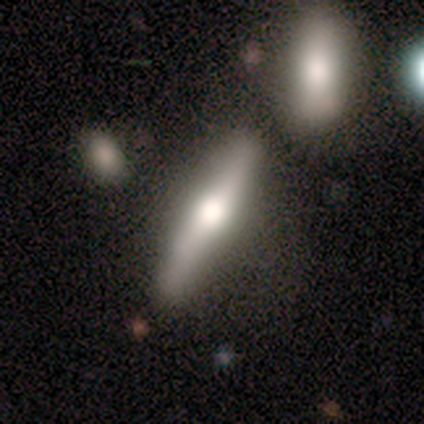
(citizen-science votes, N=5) featured or disk 60%, smooth 40%, star or artifact 0%. Down the decision tree: edge-on disk — yes (100%); edge-on bulge — rounded (100%); merging — none (40%, tied with minor disturbance).